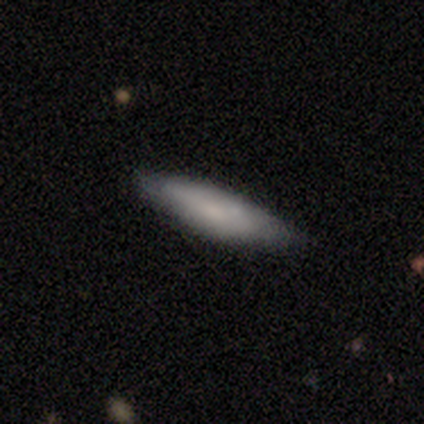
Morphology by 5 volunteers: smooth_or_featured: featured or disk (p=0.60) [alt: smooth p=0.40]
disk_edge_on: yes (p=0.67) [alt: no p=0.33]
edge_on_bulge: none (p=1.00)
merging: none (p=1.00)